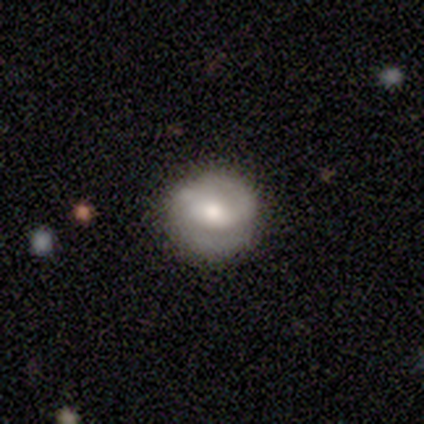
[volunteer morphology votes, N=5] Overall: smooth (100%). How rounded: round (100%). Merging: none (60%; minor disturbance 40%).